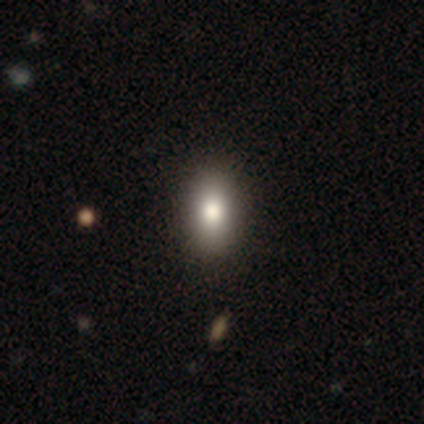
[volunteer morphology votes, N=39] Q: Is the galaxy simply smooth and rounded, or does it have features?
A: smooth — 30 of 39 (77%).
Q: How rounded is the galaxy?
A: in between — 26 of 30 (87%).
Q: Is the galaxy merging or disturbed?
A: none — 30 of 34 (88%).